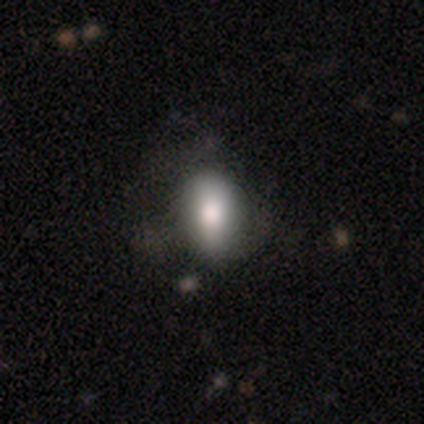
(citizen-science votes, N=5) This is clearly a smooth galaxy (80%). How rounded: clearly in between (100%). Merging: likely minor disturbance (75%).